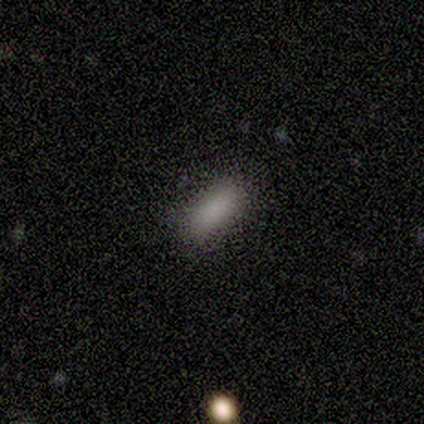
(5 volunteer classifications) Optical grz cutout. It shows a smooth galaxy with no disk features (80%) that is in between round and cigar-shaped (75%). Merging: none (100%).